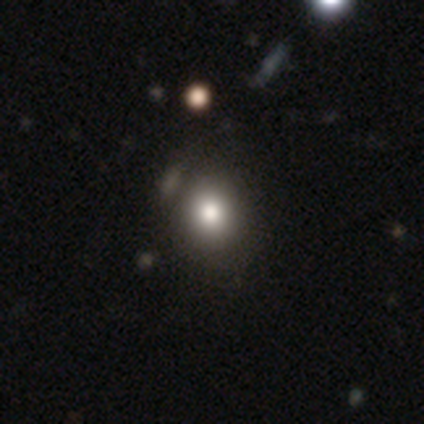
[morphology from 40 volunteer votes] smooth-or-featured: smooth: 80% | featured or disk: 12% | star or artifact: 8%
  how-rounded: round: 94% | in between: 6% | cigar-shaped: 0%
  merging: none: 65% | minor disturbance: 8% | merger: 8% | major disturbance: 3%